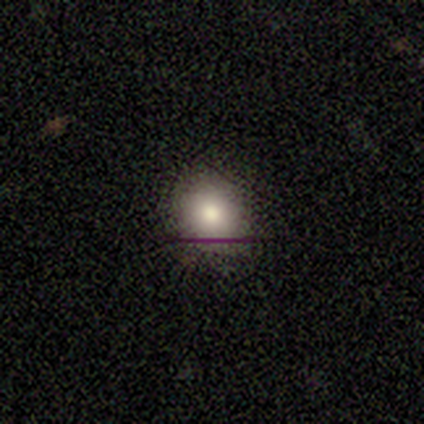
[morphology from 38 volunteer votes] This is possibly a smooth galaxy (58%). How rounded: clearly round (91%). Merging: clearly none (81%).